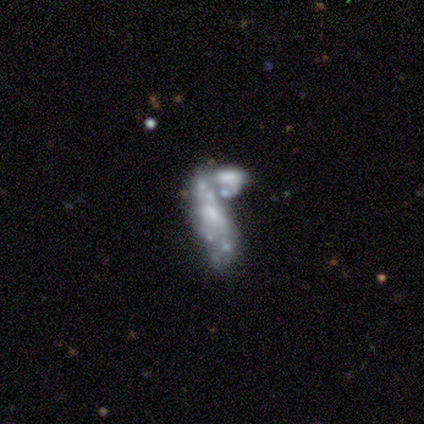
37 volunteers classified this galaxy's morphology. Overall: featured or disk (81%). Edge-on disk: no (100%). Bar: no (70%). Spiral arms: no (87%). Bulge size: none (47%; small 37%). Merging: merger (59%).